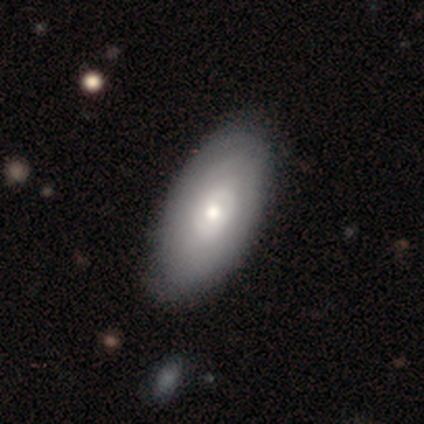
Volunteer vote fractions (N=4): This is likely a smooth galaxy (75%). How rounded: clearly in between (100%). Merging: possibly minor disturbance (50%).